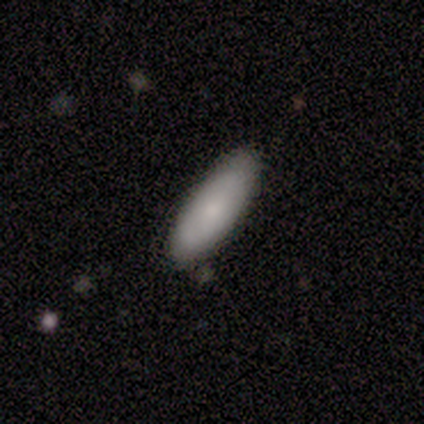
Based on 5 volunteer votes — Smooth or featured? smooth (60%)
How rounded? cigar-shaped (67%)
Merging? none (100%)